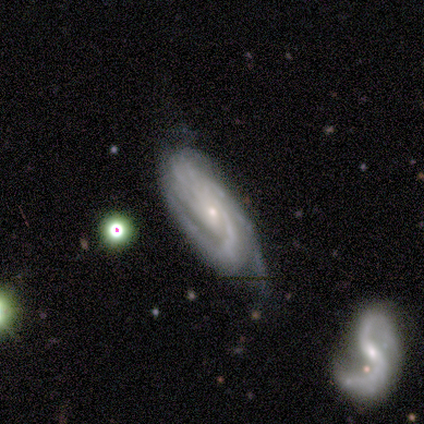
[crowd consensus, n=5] This is clearly a featured or disk galaxy (80%). It is clearly not viewed edge-on (100%). Bar: likely no (75%). Spiral arm pattern: clearly yes (100%). Spiral arm count: marginally 2 (25%, tied with 3, 4 and can't tell). Spiral winding: possibly tight (50%, tied with medium). Central bulge: clearly small (100%). Merging: clearly none (100%).